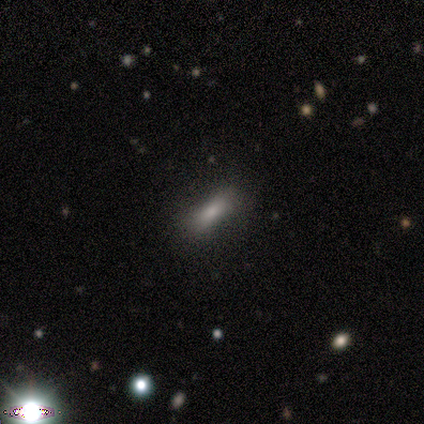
smooth 82%, featured or disk 9%, star or artifact 9%. Down the decision tree: how rounded — in between (78%); merging — none (70%).